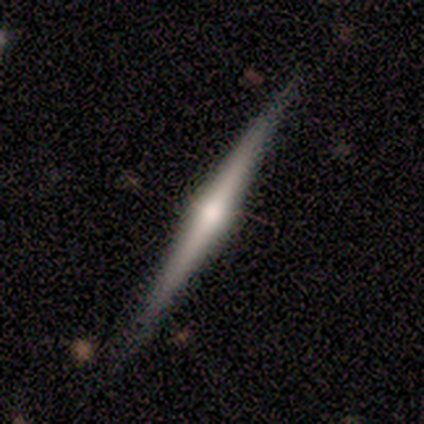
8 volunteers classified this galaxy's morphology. Smooth or featured? featured or disk (88%)
Edge-on disk? yes (100%)
Edge-on bulge? rounded (71%)
Merging? none (100%)